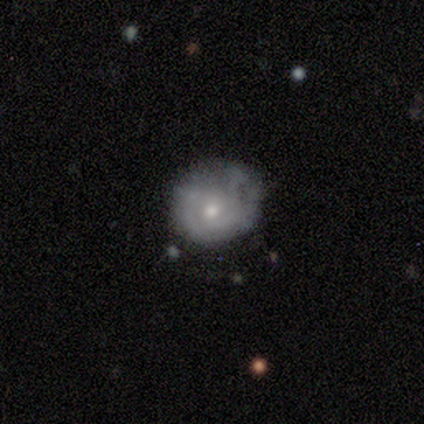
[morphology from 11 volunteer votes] Volunteers were most divided on "smooth or featured": smooth: 55%, featured or disk: 45%, star or artifact: 0%. Remaining: how rounded — round (67%); merging — none (45%).